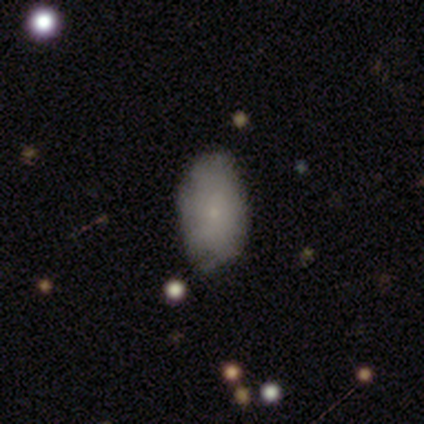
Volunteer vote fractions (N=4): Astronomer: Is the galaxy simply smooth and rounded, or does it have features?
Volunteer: smooth — 75%.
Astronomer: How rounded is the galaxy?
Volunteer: in between — 100%.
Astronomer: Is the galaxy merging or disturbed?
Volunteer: none — 50%, tied with minor disturbance at 50%.